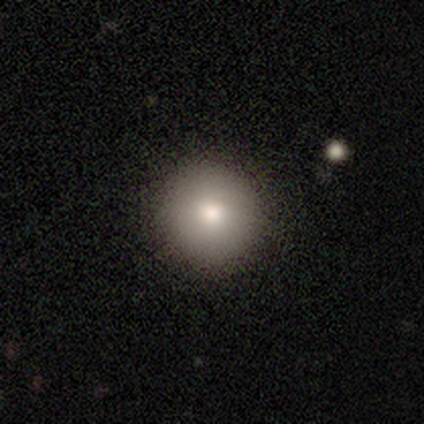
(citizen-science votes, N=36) A smooth galaxy with no disk features (81%) that is round (100%).

Vote fractions:
- Smooth or featured? smooth: 81% / featured or disk: 17% / star or artifact: 3%
- How rounded? round: 100% / in between: 0% / cigar-shaped: 0%
- Merging? none: 91% / minor disturbance: 3% / major disturbance: 3% / merger: 3%